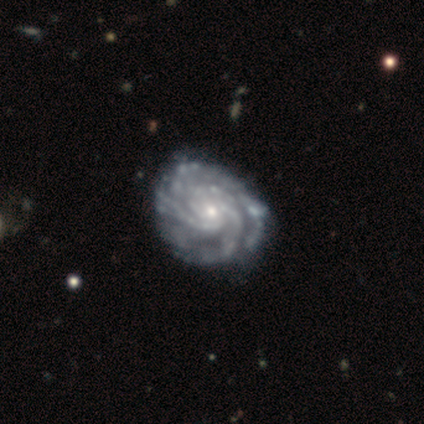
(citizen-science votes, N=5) Smooth or featured? 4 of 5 (80%) said featured or disk. Edge-on disk? 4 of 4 (100%) said no. Bar? 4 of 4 (100%) said no. Spiral arms? 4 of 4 (100%) said yes. Spiral winding? 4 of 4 (100%) said tight. Spiral arm count? 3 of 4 (75%) said 3. Bulge size? 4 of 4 (100%) said small. Merging? 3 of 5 (60%) said none.